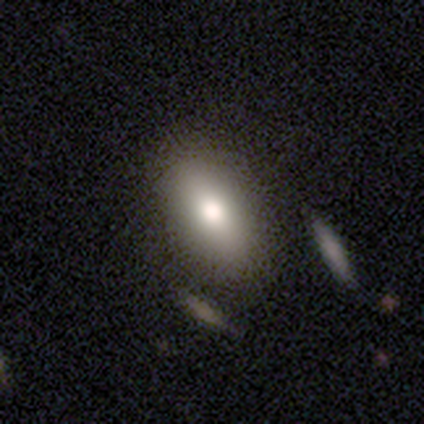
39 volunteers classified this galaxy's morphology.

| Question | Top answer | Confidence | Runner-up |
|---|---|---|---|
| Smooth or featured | smooth | 82% | star or artifact (10%) |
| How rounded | in between | 88% | cigar-shaped (12%) |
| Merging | none | 57% | merger (14%) |